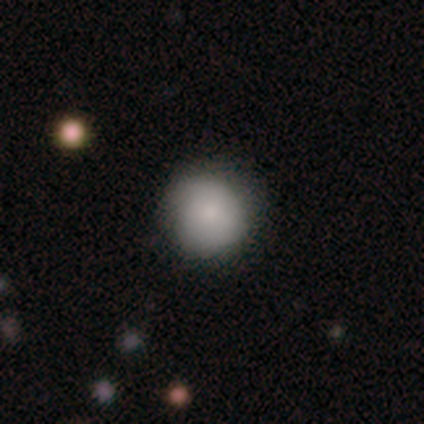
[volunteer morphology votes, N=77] This appears to be a smooth galaxy with no disk features (74%) that is round (91%). Merging: none (40%).